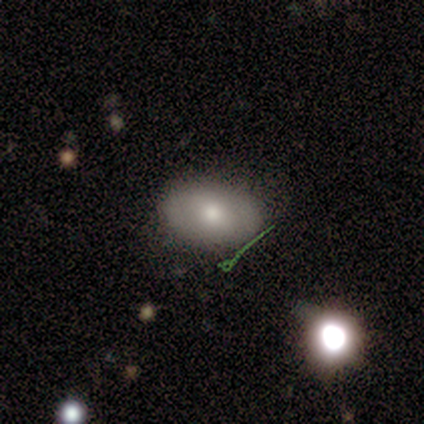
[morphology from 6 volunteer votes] A smooth galaxy with no disk features (50%) that is in between round and cigar-shaped (67%). Merging: none (100%).